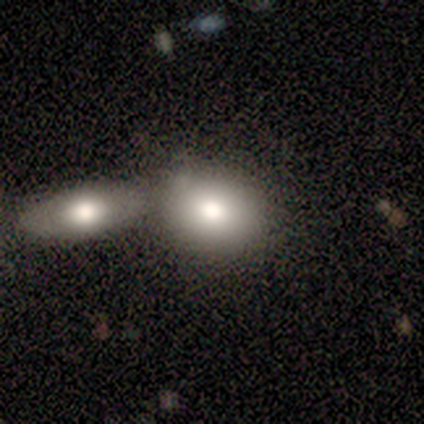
Smooth or featured: smooth — 79% (featured or disk — 15%)
How rounded: round — 58% (in between — 42%)
Merging: merger — 51% (none — 32%)